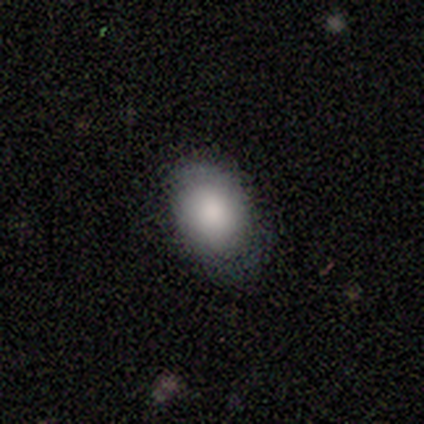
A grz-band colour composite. It shows a smooth galaxy with no disk features (100%) that is in between round and cigar-shaped (80%). Merging: none (40%, tied with minor disturbance).